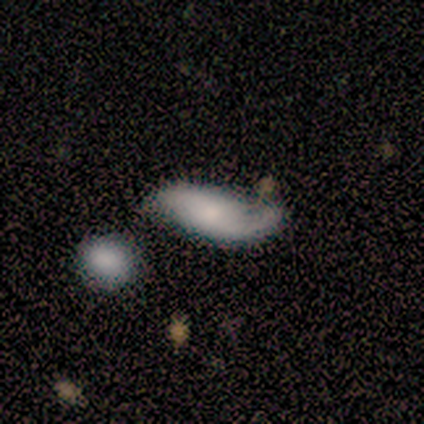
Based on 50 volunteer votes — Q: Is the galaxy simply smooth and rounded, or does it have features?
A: featured or disk — 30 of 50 (60%).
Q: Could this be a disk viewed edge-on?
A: no — 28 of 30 (93%).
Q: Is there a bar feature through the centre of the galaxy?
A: no — 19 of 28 (68%).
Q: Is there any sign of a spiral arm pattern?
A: yes — 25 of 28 (89%).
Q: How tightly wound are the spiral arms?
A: loose — 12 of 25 (48%).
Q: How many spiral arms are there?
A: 2 — 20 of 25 (80%).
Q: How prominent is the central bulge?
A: moderate — 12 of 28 (43%).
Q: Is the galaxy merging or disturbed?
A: minor disturbance — 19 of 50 (38%).